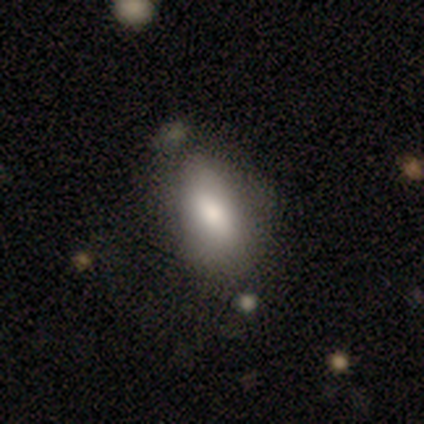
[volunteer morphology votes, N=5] A smooth galaxy with no disk features (60%) that is in between round and cigar-shaped (100%). Merging: none (75%).